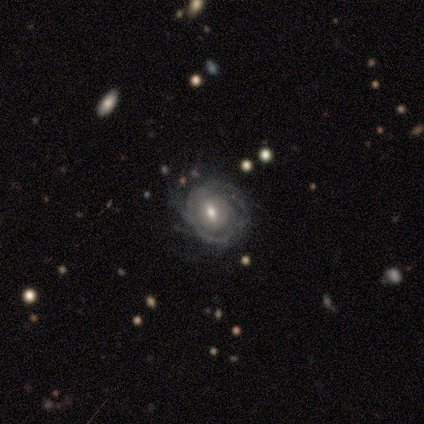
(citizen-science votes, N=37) This is likely a featured or disk galaxy (70%). It is clearly not viewed edge-on (96%). Bar: likely weak (60%). Spiral arm pattern: likely yes (72%). Spiral arm count: marginally 2 (33%). Spiral winding: likely tight (67%). Central bulge: likely moderate (76%). Merging: possibly none (59%).